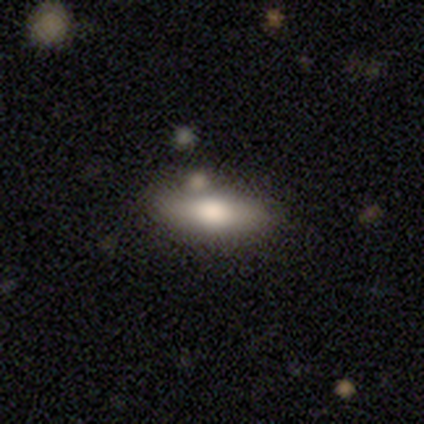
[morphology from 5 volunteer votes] A smooth galaxy with no disk features (80%) that is cigar-shaped (75%).

Vote fractions:
- Smooth or featured? smooth: 80% / featured or disk: 20% / star or artifact: 0%
- How rounded? cigar-shaped: 75% / in between: 25% / round: 0%
- Merging? none: 80% / merger: 20% / minor disturbance: 0% / major disturbance: 0%